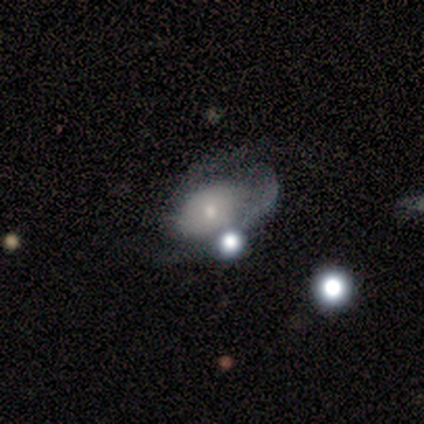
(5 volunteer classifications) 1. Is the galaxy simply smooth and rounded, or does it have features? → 80% featured or disk, 20% star or artifact, 0% smooth.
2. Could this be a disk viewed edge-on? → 75% no, 25% yes.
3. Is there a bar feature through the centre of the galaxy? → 100% no, 0% strong, 0% weak.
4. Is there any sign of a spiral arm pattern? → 100% yes, 0% no.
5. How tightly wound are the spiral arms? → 67% loose, 33% medium, 0% tight.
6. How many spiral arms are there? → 100% 2, 0% 1, 0% 3, 0% 4, 0% more than 4, 0% can't tell.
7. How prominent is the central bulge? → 67% small, 33% moderate, 0% dominant, 0% large, 0% none.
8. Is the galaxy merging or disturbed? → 75% none, 25% minor disturbance, 0% major disturbance, 0% merger.